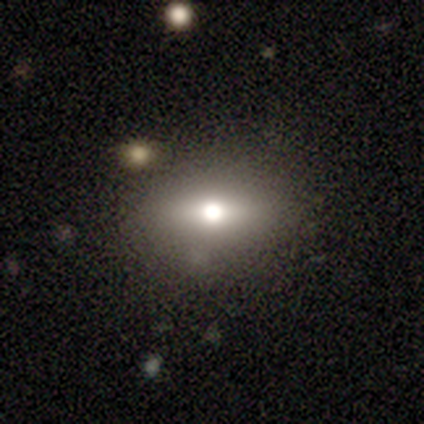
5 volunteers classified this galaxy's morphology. A smooth galaxy with no disk features (60%) that is in between round and cigar-shaped (100%).

Vote fractions:
- Smooth or featured? smooth: 60% / featured or disk: 20% / star or artifact: 20%
- How rounded? in between: 100% / round: 0% / cigar-shaped: 0%
- Merging? none: 75% / minor disturbance: 25% / major disturbance: 0% / merger: 0%